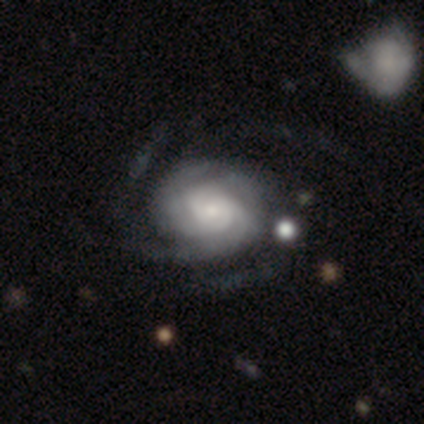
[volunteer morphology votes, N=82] Smooth or featured: featured or disk — 82% (star or artifact — 10%)
Edge-on disk: no — 93% (yes — 7%)
Bar: no — 71% (weak — 24%)
Spiral arms: yes — 95% (no — 5%)
Spiral winding: tight — 63% (medium — 25%)
Spiral arm count: 3 — 34% (can't tell — 24%)
Bulge size: small — 55% (moderate — 26%)
Merging: none — 64% (minor disturbance — 22%)